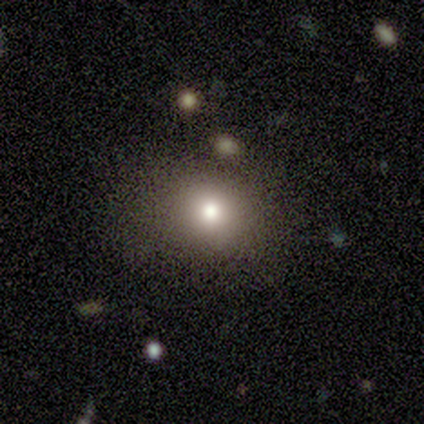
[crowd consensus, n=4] Smooth or featured? smooth (50%)
How rounded? in between (100%)
Merging? none (67%)